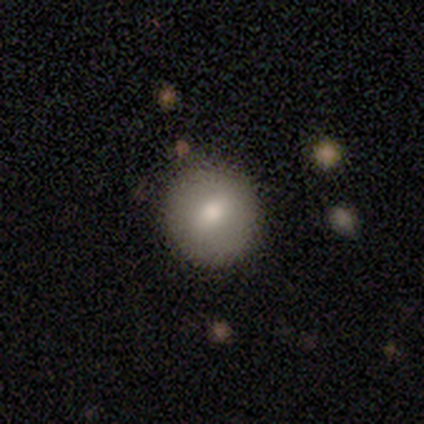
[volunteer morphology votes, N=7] This is possibly a featured or disk galaxy (57%). It is clearly not viewed edge-on (100%). Bar: possibly weak (50%). Spiral arm pattern: likely no (75%). Central bulge: possibly small (50%). Merging: likely none (71%).